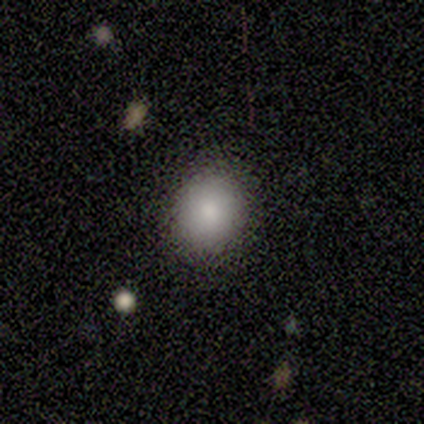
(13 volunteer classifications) Overall: smooth (92%). How rounded: round (75%). Merging: none (92%).